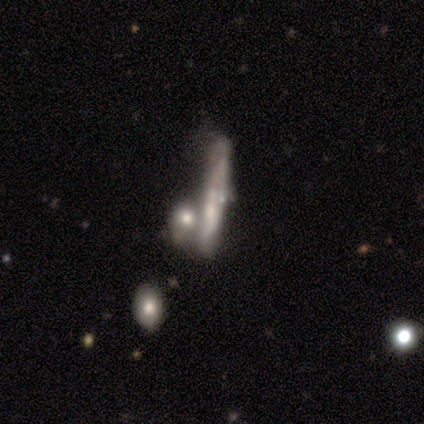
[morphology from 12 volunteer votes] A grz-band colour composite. It shows a featured or disk galaxy (67%) viewed edge-on (75%) with no central bulge (100%). Merging: none (55%).